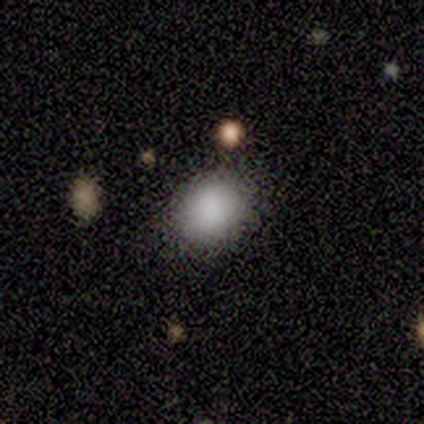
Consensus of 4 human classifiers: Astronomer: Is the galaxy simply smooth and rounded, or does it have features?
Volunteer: smooth — 100%.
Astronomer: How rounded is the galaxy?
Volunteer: round — 75%.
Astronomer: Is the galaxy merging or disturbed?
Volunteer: none — 75%.